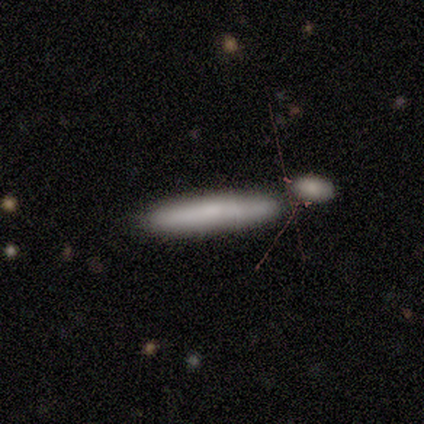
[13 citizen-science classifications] A smooth galaxy with no disk features (77%) that is cigar-shaped (100%).

Vote fractions:
- Smooth or featured? smooth: 77% / featured or disk: 15% / star or artifact: 8%
- How rounded? cigar-shaped: 100% / round: 0% / in between: 0%
- Merging? none: 75% / minor disturbance: 17% / merger: 8% / major disturbance: 0%